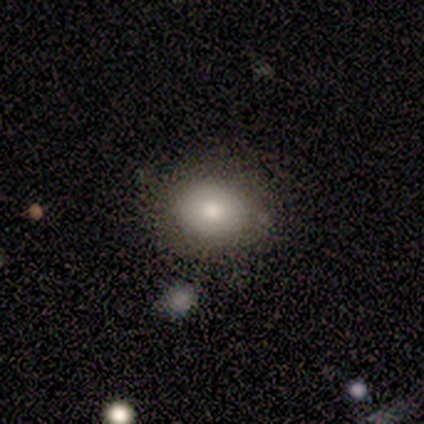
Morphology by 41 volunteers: Q: Smooth or featured?
A: smooth (80%); runner-up: featured or disk (10%)
Q: How rounded?
A: round (52%); runner-up: in between (48%)
Q: Merging?
A: none (84%); runner-up: minor disturbance (11%)